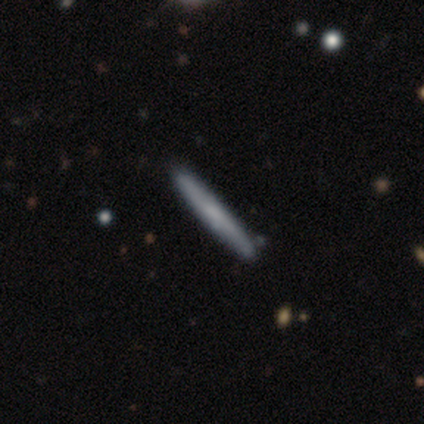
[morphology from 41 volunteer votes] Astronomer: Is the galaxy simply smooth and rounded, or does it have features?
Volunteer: smooth — 56% (runner-up: featured or disk, 39%).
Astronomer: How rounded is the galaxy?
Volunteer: cigar-shaped — 100%.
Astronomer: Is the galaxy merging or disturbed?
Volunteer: none — 95%.